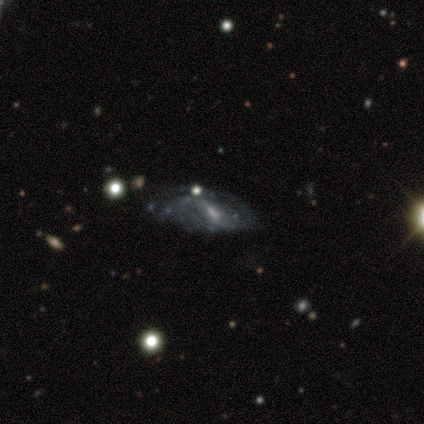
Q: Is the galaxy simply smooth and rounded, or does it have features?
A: featured or disk — 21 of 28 (75%).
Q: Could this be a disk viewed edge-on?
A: no — 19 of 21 (90%).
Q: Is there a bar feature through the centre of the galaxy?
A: weak — 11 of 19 (58%).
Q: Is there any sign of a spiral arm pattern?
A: yes — 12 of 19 (63%).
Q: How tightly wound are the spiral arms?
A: loose — 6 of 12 (50%).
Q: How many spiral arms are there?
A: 2 — 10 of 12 (83%).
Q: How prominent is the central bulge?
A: moderate — 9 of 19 (47%).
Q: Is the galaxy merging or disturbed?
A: none — 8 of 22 (36%, tied with minor disturbance).